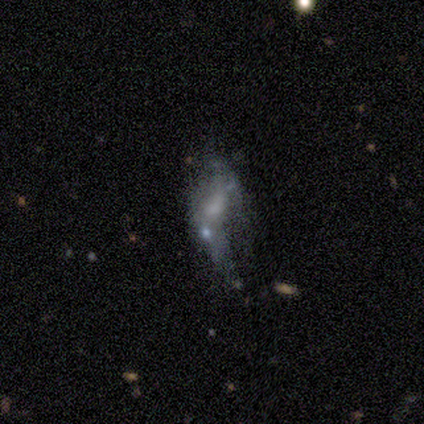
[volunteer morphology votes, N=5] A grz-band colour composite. It shows a smooth galaxy with no disk features (60%) that is in between round and cigar-shaped (100%). Merging: major disturbance (50%).